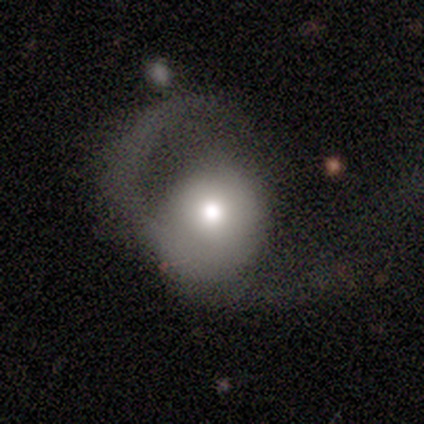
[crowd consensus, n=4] Morphology: type=featured or disk (75%); edge-on=no (100%); bar=no (100%); spiral arms=no (67%); bulge=large (67%); merging=major disturbance (75%).